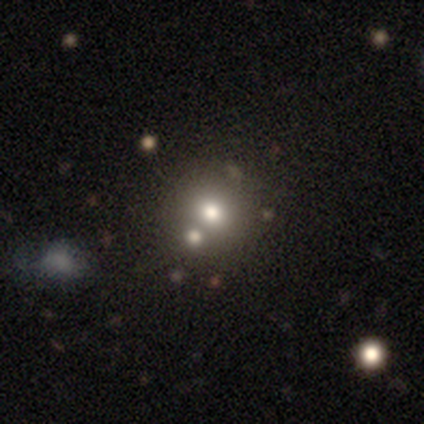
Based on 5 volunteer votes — A smooth galaxy with no disk features (60%) that is round (100%). Merging: none (60%).